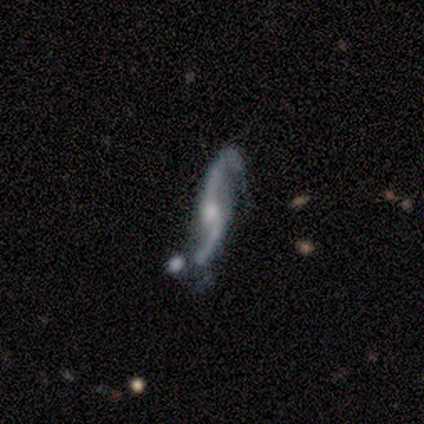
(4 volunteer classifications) featured or disk 100%, smooth 0%, star or artifact 0%. Down the decision tree: edge-on disk — no (75%); bar — no (67%); spiral arms — yes (100%); spiral arm count — 2 (100%); spiral winding — loose (100%); bulge size — moderate (67%); merging — none (50%).